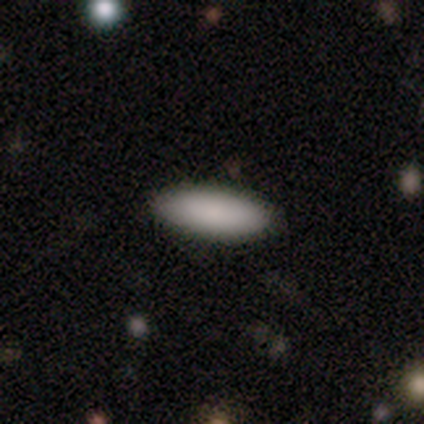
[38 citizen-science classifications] smooth_or_featured: smooth (p=0.89) [alt: star or artifact p=0.08]
how_rounded: in between (p=0.76) [alt: cigar-shaped p=0.24]
merging: none (p=0.91) [alt: major disturbance p=0.06]